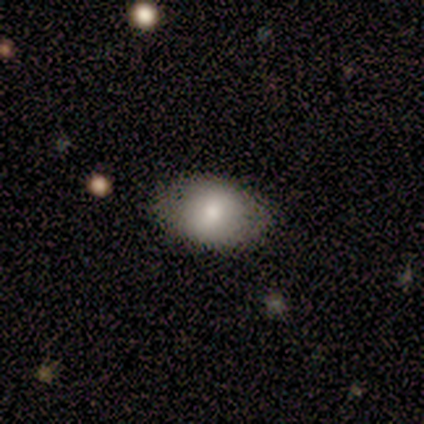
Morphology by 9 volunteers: Smooth or featured: smooth — 89% (featured or disk — 11%)
How rounded: in between — 75% (round — 25%)
Merging: none — 100%